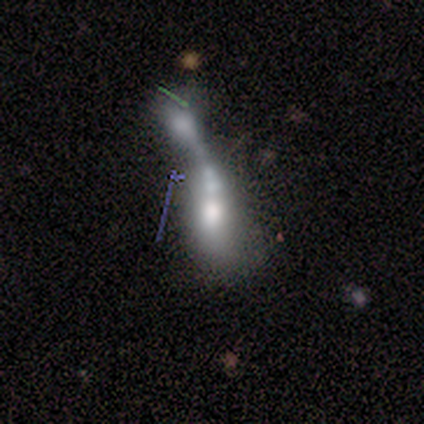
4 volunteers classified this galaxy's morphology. type=featured or disk (50%); edge-on=no (100%); bar=no (100%); spiral arms=no (100%); bulge=moderate (100%); merging=none (33%, tied with major disturbance and merger).